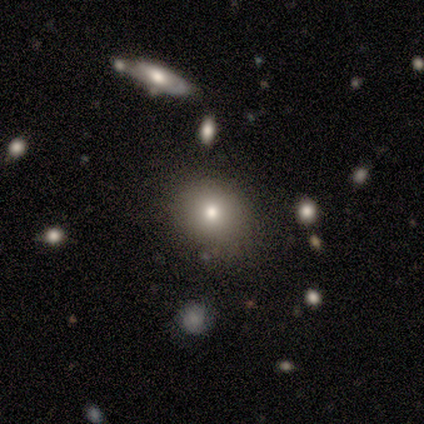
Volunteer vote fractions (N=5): Smooth or featured?
  - smooth: 60% *
  - featured or disk: 20%
  - star or artifact: 20%
How rounded?
  - round: 100% *
  - in between: 0%
  - cigar-shaped: 0%
Merging?
  - none: 100% *
  - minor disturbance: 0%
  - major disturbance: 0%
  - merger: 0%